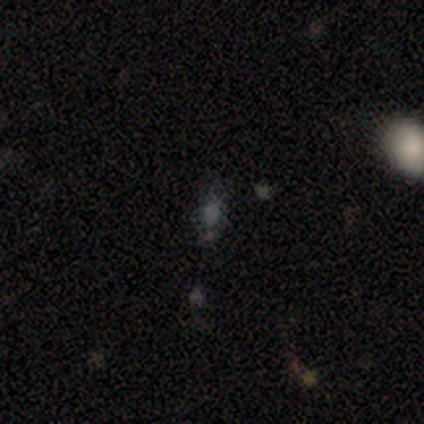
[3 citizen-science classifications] This is likely a smooth galaxy (67%). How rounded: possibly round (50%, tied with in between). Merging: possibly none (50%, tied with minor disturbance).